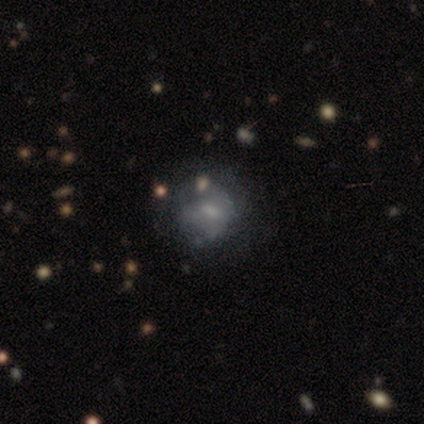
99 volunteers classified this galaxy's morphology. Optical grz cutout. It shows a featured or disk galaxy (48%) with no bar (52%), no spiral arms (79%) and a moderate central bulge (40%). Merging: none (57%).